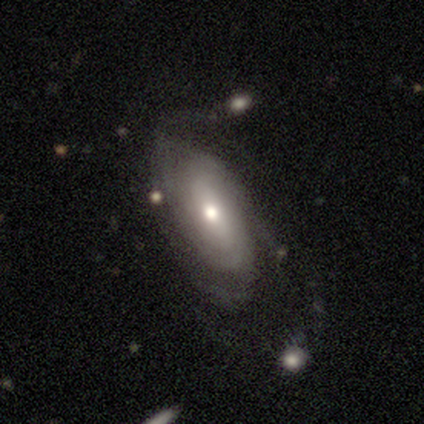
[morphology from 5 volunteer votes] Volunteers were most divided on "bulge size" (2-way tie): moderate: 40%, small: 40%, large: 20%, dominant: 0%, none: 0%. More confident: smooth or featured — featured or disk (100%); edge-on disk — no (100%); bar — weak (80%); spiral arms — yes (80%); merging — none (80%); spiral winding — tight (75%); spiral arm count — can't tell (75%).